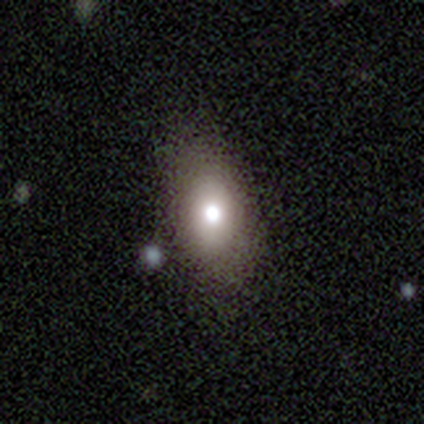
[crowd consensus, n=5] Overall: smooth (80%). How rounded: in between (75%). Merging: none (40%, tied with minor disturbance).